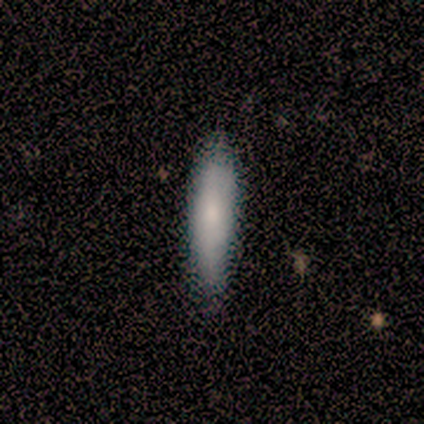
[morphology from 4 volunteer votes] smooth 100%, featured or disk 0%, star or artifact 0%. Down the decision tree: how rounded — cigar-shaped (75%); merging — none (100%).